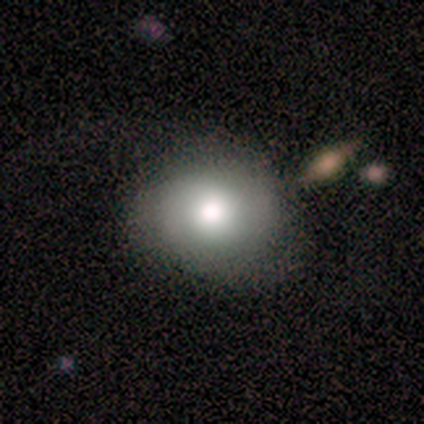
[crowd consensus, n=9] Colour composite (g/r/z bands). It shows a smooth galaxy with no disk features (67%) that is in between round and cigar-shaped (67%). Merging: none (89%).